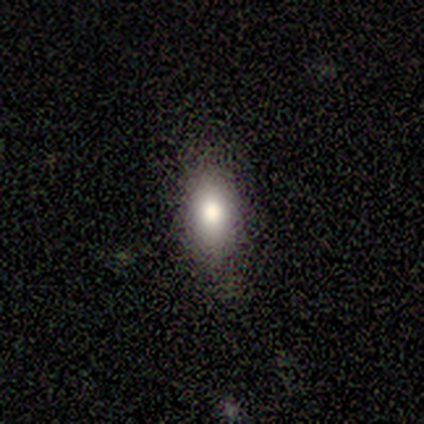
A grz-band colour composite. It shows a smooth galaxy with no disk features (80%) that is in between round and cigar-shaped (100%). Merging: none (100%).